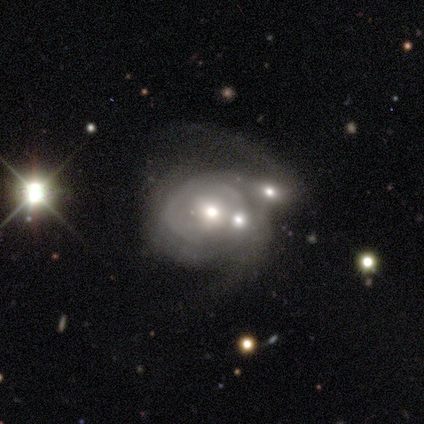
This appears to be a featured or disk galaxy (80%) with no bar (75%), tight (67%) spiral arms (75%) and a small central bulge (75%). Merging: minor disturbance (60%).